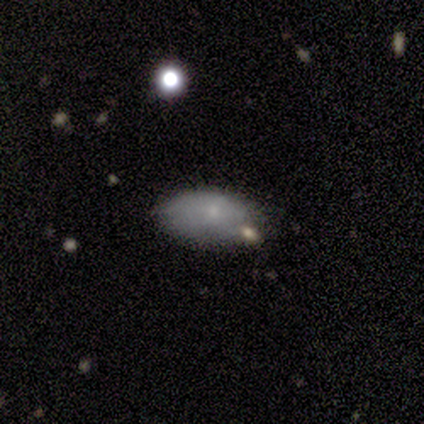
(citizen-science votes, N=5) This appears to be a smooth galaxy with no disk features (80%) that is in between round and cigar-shaped (100%). Merging: none (40%, tied with minor disturbance).